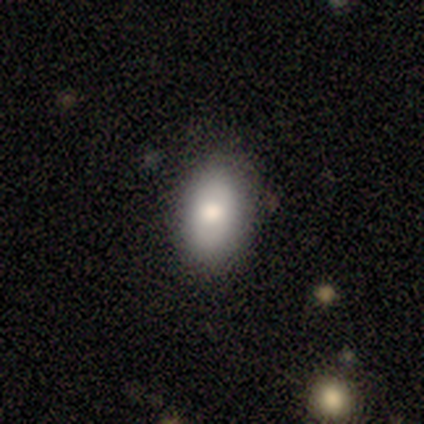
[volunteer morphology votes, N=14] This is likely a smooth galaxy (71%). How rounded: clearly in between (100%). Merging: likely none (79%).